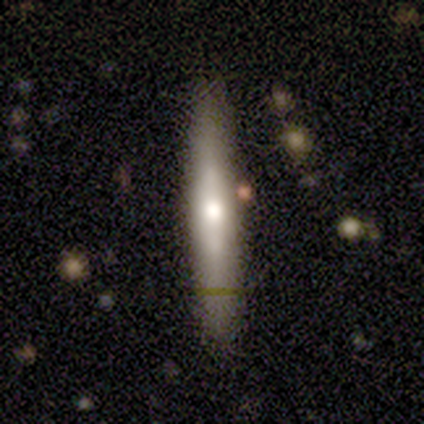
smooth 50% (tied), featured or disk 50% (tied), star or artifact 0%. Down the decision tree: how rounded — cigar-shaped (100%); merging — none (50%, tied with minor disturbance).